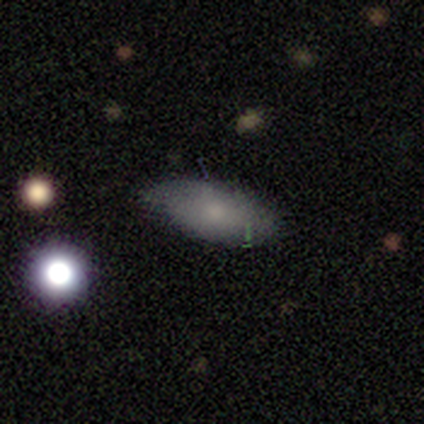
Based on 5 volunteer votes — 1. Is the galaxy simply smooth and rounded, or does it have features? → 80% smooth, 20% featured or disk, 0% star or artifact.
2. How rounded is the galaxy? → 75% in between, 25% cigar-shaped, 0% round.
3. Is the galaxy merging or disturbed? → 60% minor disturbance, 40% none, 0% major disturbance, 0% merger.